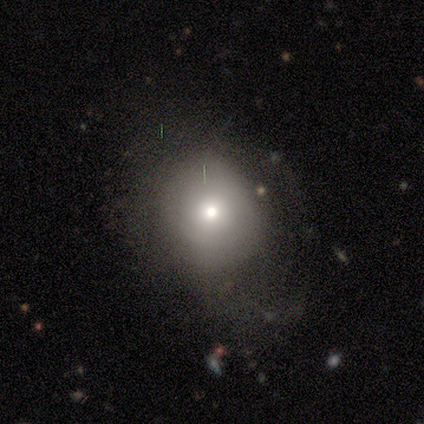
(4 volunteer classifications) smooth 100%, featured or disk 0%, star or artifact 0%. Down the decision tree: how rounded — round (100%); merging — none (100%).